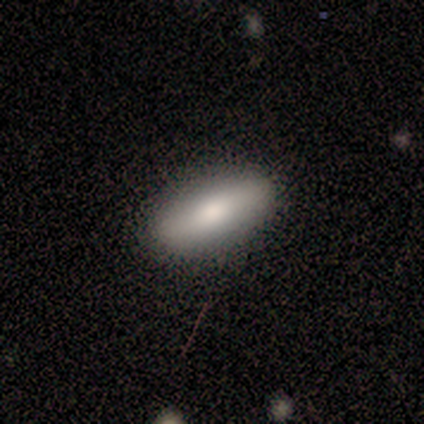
Smooth or featured?
  - smooth: 83% *
  - featured or disk: 17%
  - star or artifact: 0%
How rounded?
  - in between: 60% *
  - round: 20%
  - cigar-shaped: 20%
Merging?
  - none: 100% *
  - minor disturbance: 0%
  - major disturbance: 0%
  - merger: 0%